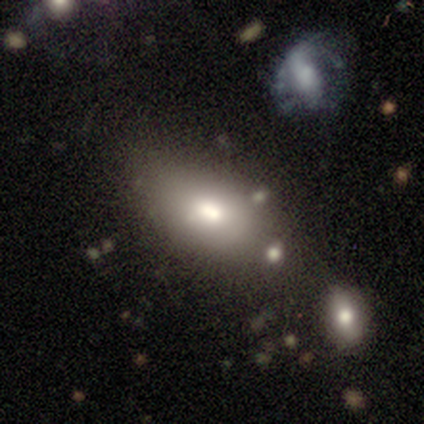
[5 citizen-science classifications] Q: Smooth or featured?
A: smooth (80%); runner-up: star or artifact (20%)
Q: How rounded?
A: in between (100%)
Q: Merging?
A: none (50%); runner-up: minor disturbance (25%)